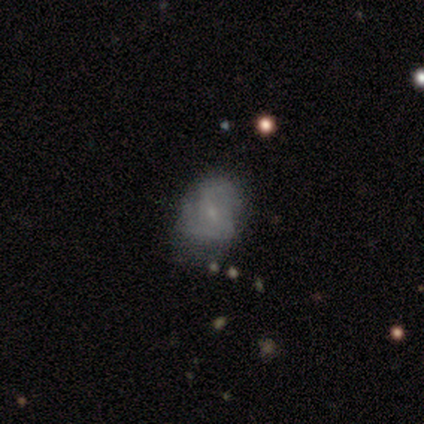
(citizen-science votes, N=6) smooth_or_featured: featured or disk (p=0.67) [alt: smooth p=0.33]
disk_edge_on: no (p=1.00)
bar: weak (p=0.50) [tied with: no p=0.50]
has_spiral_arms: yes (p=0.75) [alt: no p=0.25]
spiral_winding: medium (p=0.67) [alt: loose p=0.33]
spiral_arm_count: can't tell (p=0.67) [alt: 2 p=0.33]
bulge_size: small (p=1.00)
merging: none (p=0.67) [alt: minor disturbance p=0.33]